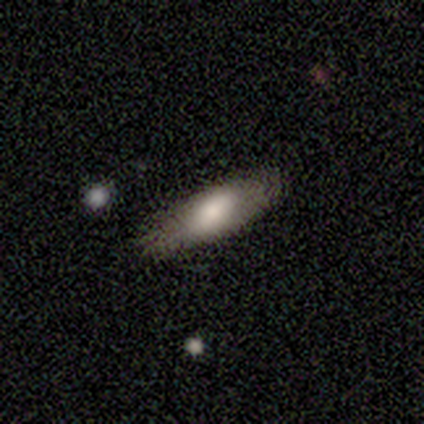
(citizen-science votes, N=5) Smooth or featured: smooth — 60% (featured or disk — 40%)
How rounded: in between — 67% (cigar-shaped — 33%)
Merging: none — 80% (minor disturbance — 20%)